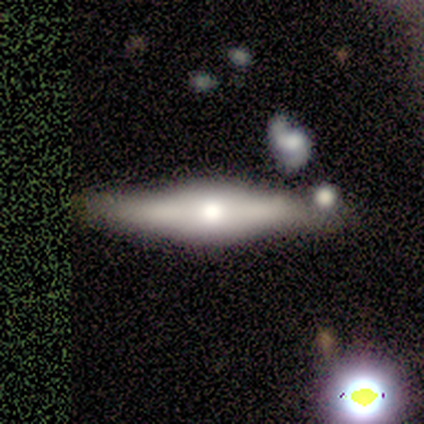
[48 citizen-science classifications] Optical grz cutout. It shows a featured or disk galaxy (83%) viewed edge-on (98%) with a rounded central bulge (79%). Merging: none (68%).